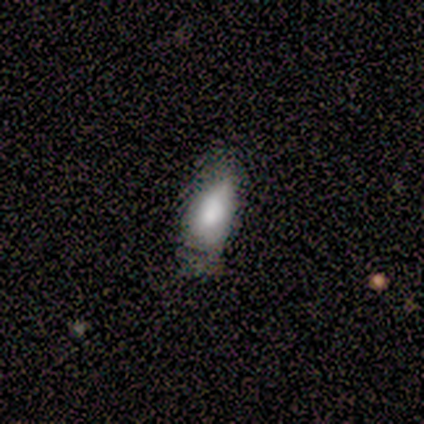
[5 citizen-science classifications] Smooth or featured? smooth (60%)
How rounded? in between (100%)
Merging? minor disturbance (67%)